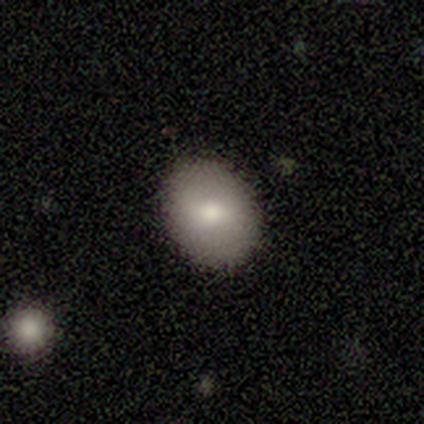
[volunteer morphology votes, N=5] This is clearly a smooth galaxy (80%). How rounded: clearly in between (100%). Merging: clearly none (100%).